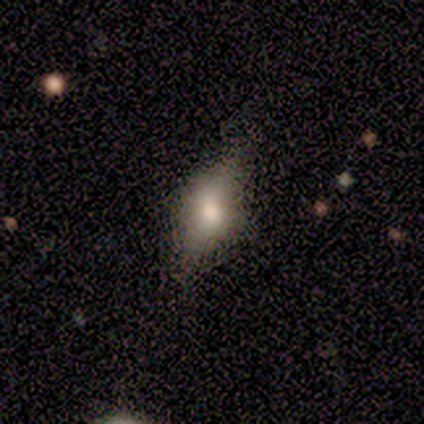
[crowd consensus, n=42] A smooth galaxy with no disk features (60%) that is in between round and cigar-shaped (68%). Merging: none (64%).